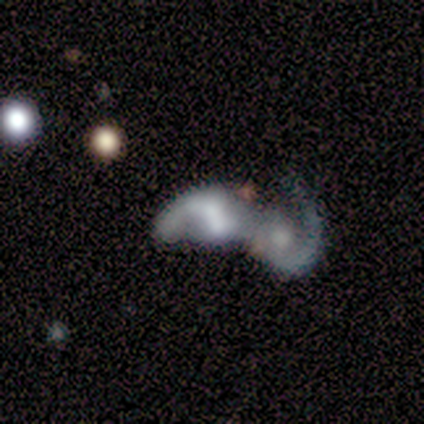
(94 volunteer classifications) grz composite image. It shows a featured or disk galaxy (77%) with no bar (54%), 1 (55%) loose (61%) spiral arms (69%) and a moderate central bulge (32%). Merging: merger (83%).